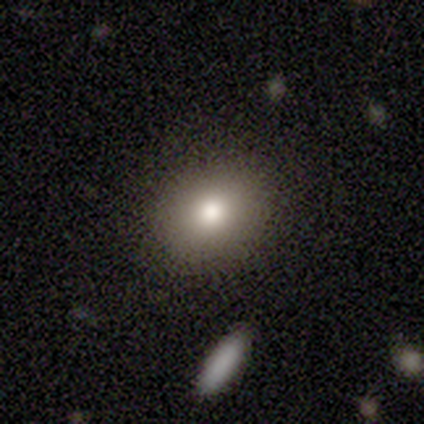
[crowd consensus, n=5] Smooth or featured: smooth — 100%
How rounded: in between — 80% (round — 20%)
Merging: none — 80% (minor disturbance — 20%)